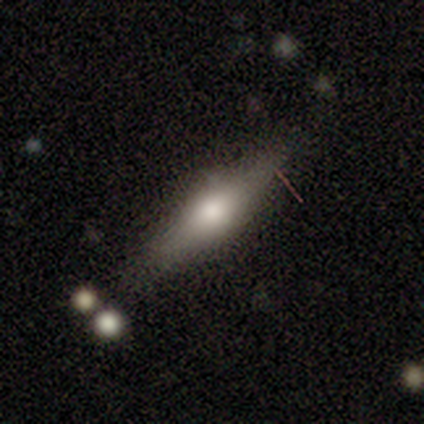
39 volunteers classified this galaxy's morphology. smooth-or-featured: featured or disk: 56% | smooth: 36% | star or artifact: 8%
  disk-edge-on: yes: 100% | no: 0%
    edge-on-bulge: rounded: 95% | boxy: 5% | none: 0%
  merging: none: 72% | minor disturbance: 19% | major disturbance: 8% | merger: 0%